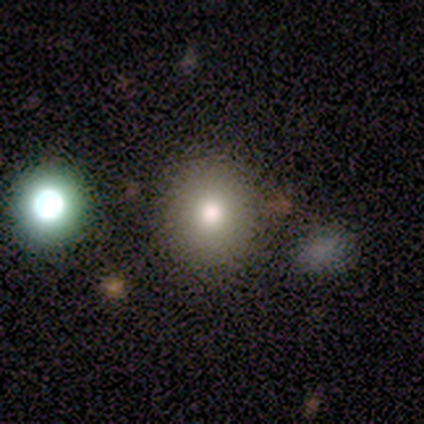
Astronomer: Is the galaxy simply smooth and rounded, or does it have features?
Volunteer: smooth — 80%.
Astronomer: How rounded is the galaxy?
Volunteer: round — 75%.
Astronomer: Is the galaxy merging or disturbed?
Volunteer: none — 100%.